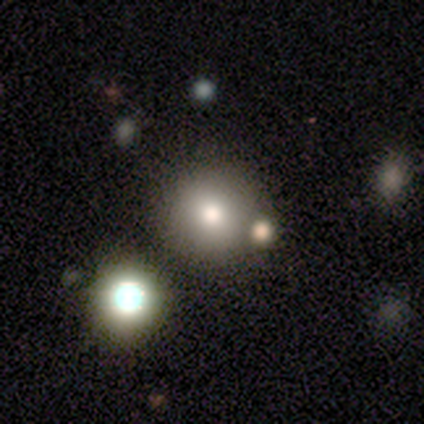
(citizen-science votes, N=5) Volunteers were most divided on "merging" (2-way tie): major disturbance: 50%, merger: 50%, none: 0%, minor disturbance: 0%. More confident: how rounded — round (100%); smooth or featured — smooth (60%).